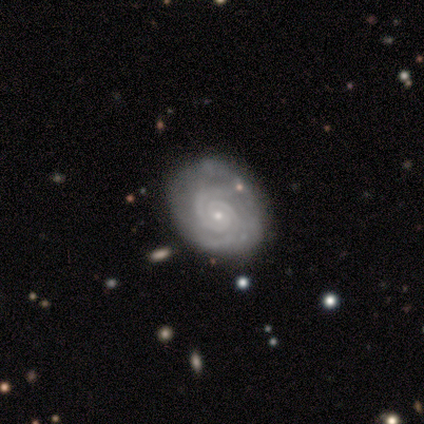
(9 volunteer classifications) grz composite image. It shows a featured or disk galaxy (89%) with no bar (86%), 2 (71%) tight (86%) spiral arms (100%) and a small central bulge (100%). Merging: none (75%).